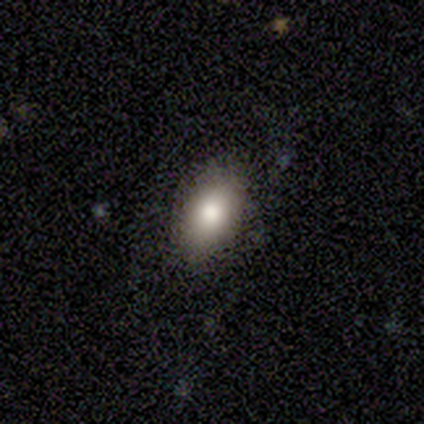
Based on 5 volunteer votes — smooth 100%, featured or disk 0%, star or artifact 0%. Down the decision tree: how rounded — in between (80%); merging — none (80%).